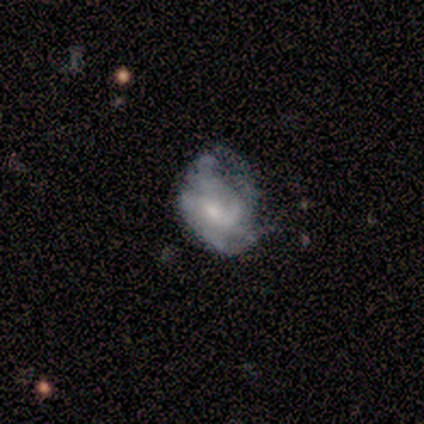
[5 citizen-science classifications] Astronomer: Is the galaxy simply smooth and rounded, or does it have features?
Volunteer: featured or disk — 60% (runner-up: smooth, 40%).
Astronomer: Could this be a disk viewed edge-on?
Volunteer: no — 100%.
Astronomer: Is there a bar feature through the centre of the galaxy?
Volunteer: weak — 67%.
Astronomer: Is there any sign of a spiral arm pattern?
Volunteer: no — 67%.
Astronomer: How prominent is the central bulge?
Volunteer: small — 67%.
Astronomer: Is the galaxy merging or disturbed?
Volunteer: none — 40%, tied with minor disturbance at 40%.